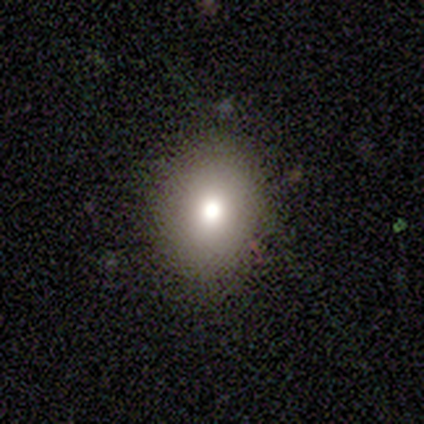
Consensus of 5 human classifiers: Overall: smooth (60%; featured or disk 40%). How rounded: round (67%; in between 33%). Merging: none (80%).